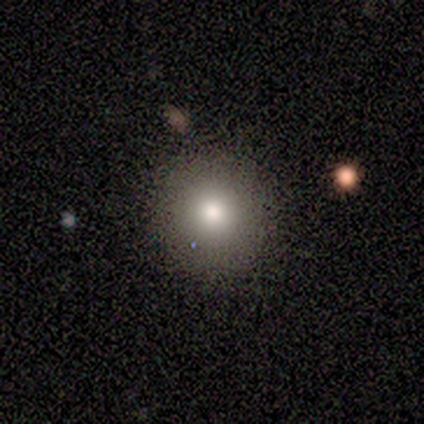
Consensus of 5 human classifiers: Smooth or featured? 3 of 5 (60%) said smooth. How rounded? 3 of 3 (100%) said round. Merging? 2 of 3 (67%) said none.